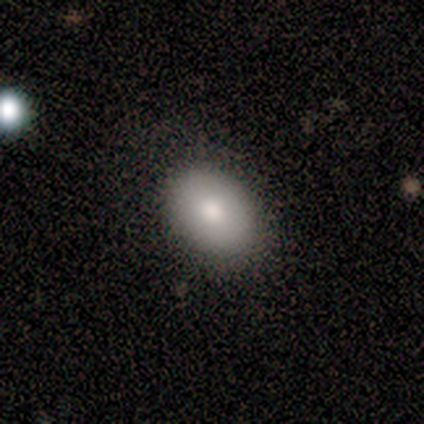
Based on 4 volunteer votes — Volunteers were most divided on "how rounded": in between: 75%, round: 25%, cigar-shaped: 0%. More confident: smooth or featured — smooth (100%); merging — none (75%).